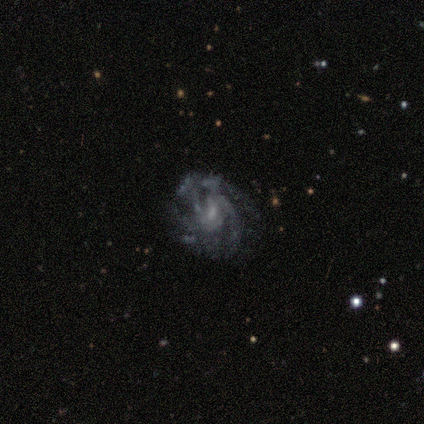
Smooth or featured? 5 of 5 (100%) said featured or disk. Edge-on disk? 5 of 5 (100%) said no. Bar? 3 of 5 (60%) said no. Spiral arms? 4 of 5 (80%) said yes. Spiral winding? 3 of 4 (75%) said tight. Spiral arm count? 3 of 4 (75%) said can't tell. Bulge size? 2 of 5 (40%, tied with none) said small. Merging? 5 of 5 (100%) said none.